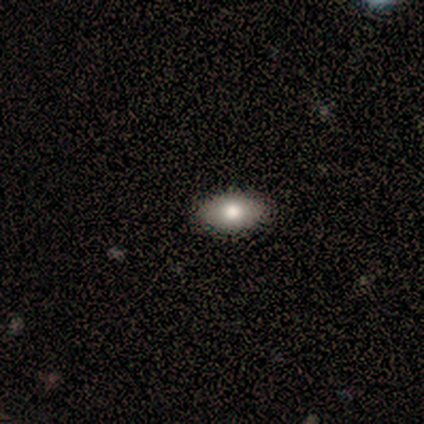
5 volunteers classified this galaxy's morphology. Q: Smooth or featured?
A: smooth (80%); runner-up: featured or disk (20%)
Q: How rounded?
A: in between (100%)
Q: Merging?
A: none (100%)